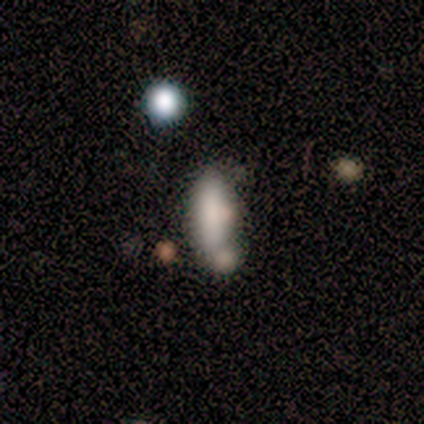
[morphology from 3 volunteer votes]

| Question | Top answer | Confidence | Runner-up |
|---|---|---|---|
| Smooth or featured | smooth | 100% | — |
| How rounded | in between | 67% | cigar-shaped (33%) |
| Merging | none | 100% | — |